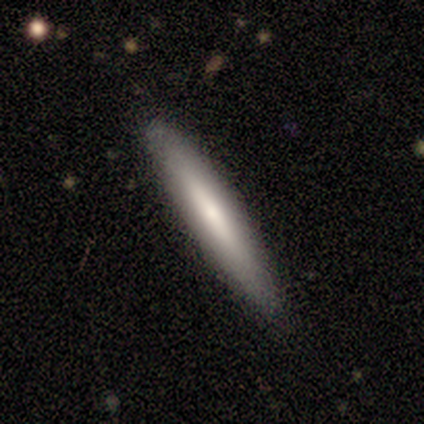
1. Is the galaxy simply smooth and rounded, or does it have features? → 100% smooth, 0% featured or disk, 0% star or artifact.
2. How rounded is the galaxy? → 100% cigar-shaped, 0% round, 0% in between.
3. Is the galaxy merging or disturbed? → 100% none, 0% minor disturbance, 0% major disturbance, 0% merger.